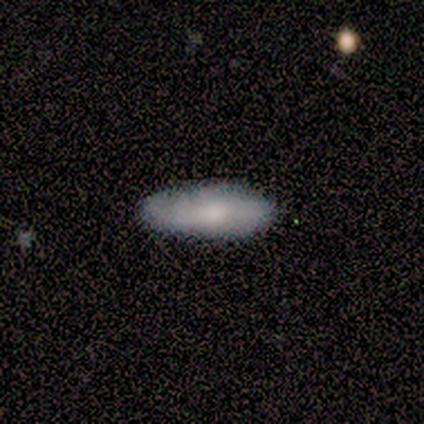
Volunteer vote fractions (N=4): Smooth or featured: smooth — 100%
How rounded: in between — 75% (cigar-shaped — 25%)
Merging: none — 100%